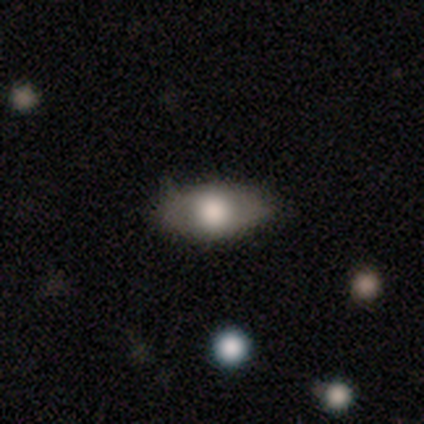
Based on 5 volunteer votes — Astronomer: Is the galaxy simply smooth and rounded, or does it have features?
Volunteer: featured or disk — 80%.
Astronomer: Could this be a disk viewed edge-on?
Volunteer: yes — 50%, tied with no at 50%.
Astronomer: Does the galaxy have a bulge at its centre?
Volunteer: rounded — 100%.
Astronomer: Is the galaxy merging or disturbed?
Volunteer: none — 80%.